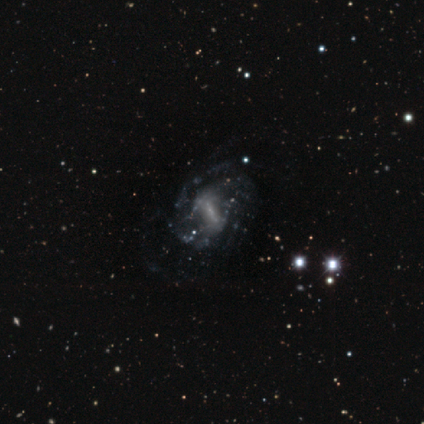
smooth_or_featured: featured or disk (p=1.00)
disk_edge_on: no (p=1.00)
bar: strong (p=0.60) [alt: weak p=0.20]
has_spiral_arms: yes (p=0.60) [alt: no p=0.40]
spiral_winding: tight (p=0.67) [alt: loose p=0.33]
spiral_arm_count: 2 (p=0.33) [tied with: 4 p=0.33, can't tell p=0.33]
bulge_size: small (p=0.40) [tied with: none p=0.40]
merging: none (p=0.60) [alt: major disturbance p=0.40]